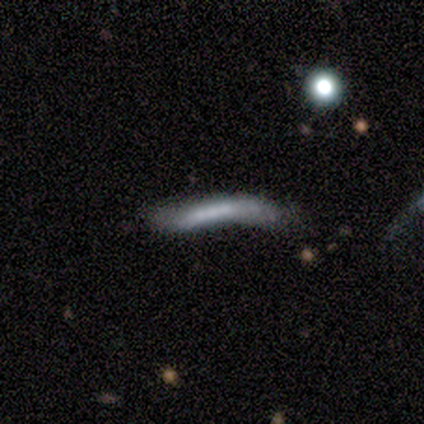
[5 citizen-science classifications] smooth-or-featured: smooth: 80% | star or artifact: 20% | featured or disk: 0%
  how-rounded: cigar-shaped: 75% | in between: 25% | round: 0%
  merging: minor disturbance: 75% | none: 25% | major disturbance: 0% | merger: 0%